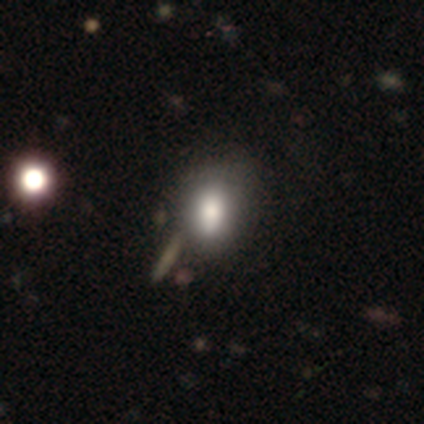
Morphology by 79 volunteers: Q: Smooth or featured?
A: smooth (75%); runner-up: featured or disk (15%)
Q: How rounded?
A: in between (71%); runner-up: round (24%)
Q: Merging?
A: none (27%); runner-up: merger (21%)